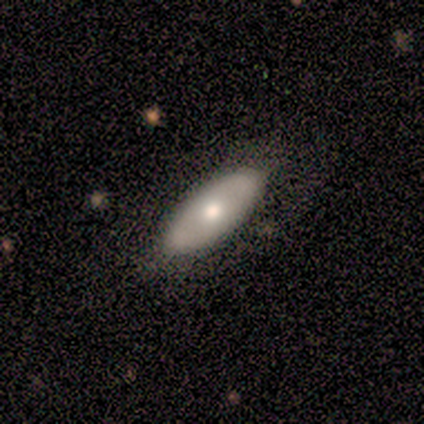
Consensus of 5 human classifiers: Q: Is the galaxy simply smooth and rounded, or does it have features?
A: featured or disk — 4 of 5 (80%).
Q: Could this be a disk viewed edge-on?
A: no — 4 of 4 (100%).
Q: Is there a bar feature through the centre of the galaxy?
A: no — 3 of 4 (75%).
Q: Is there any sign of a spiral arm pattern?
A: no — 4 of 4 (100%).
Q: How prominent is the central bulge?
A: moderate — 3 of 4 (75%).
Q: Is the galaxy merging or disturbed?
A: none — 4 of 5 (80%).